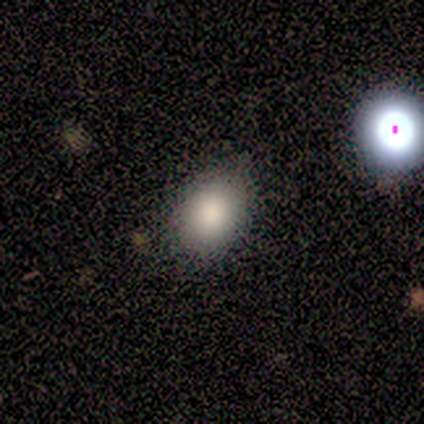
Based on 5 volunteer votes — A smooth galaxy with no disk features (80%) that is in between round and cigar-shaped (50%). Merging: none (100%).